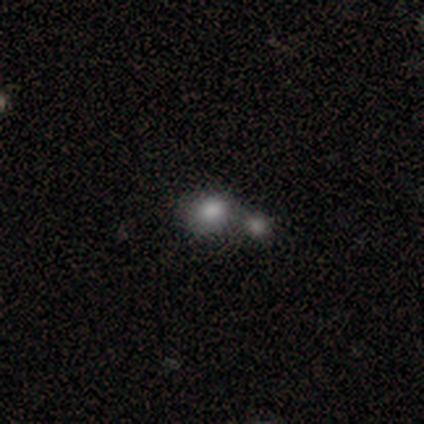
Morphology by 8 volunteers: Smooth or featured? 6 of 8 (75%) said smooth. How rounded? 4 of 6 (67%) said round. Merging? 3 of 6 (50%) said merger.